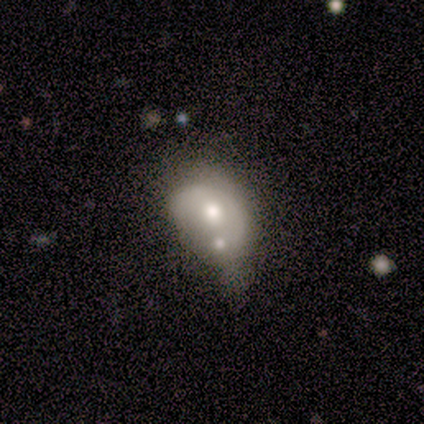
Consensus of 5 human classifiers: This is likely a featured or disk galaxy (60%). It is clearly not viewed edge-on (100%). Bar: likely no (67%). Spiral arm pattern: clearly no (100%). Central bulge: likely moderate (67%). Merging: marginally minor disturbance (40%, tied with merger).